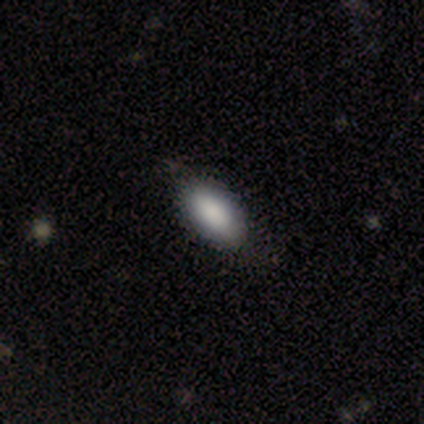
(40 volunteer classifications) Smooth or featured? smooth (88%)
How rounded? in between (94%)
Merging? none (64%)